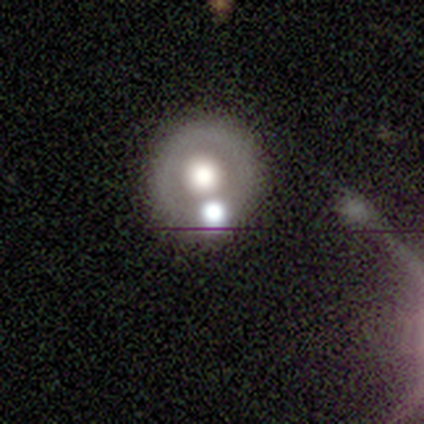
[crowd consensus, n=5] A featured or disk galaxy (60%) with no bar (100%), no spiral arms (100%) and a moderate central bulge (100%). Merging: none (80%).